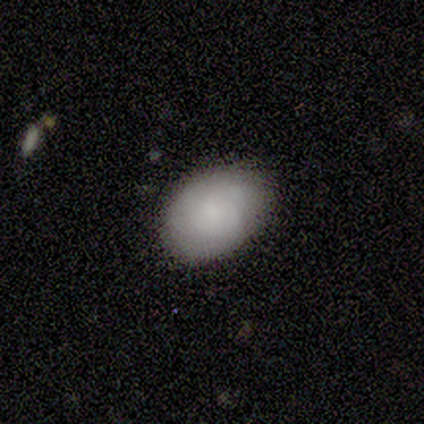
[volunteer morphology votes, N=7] This is clearly a smooth galaxy (100%). How rounded: clearly in between (86%). Merging: clearly none (86%).